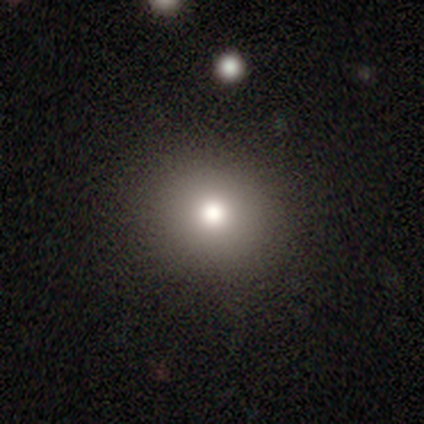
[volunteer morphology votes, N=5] smooth-or-featured: smooth: 100% | featured or disk: 0% | star or artifact: 0%
  how-rounded: round: 80% | in between: 20% | cigar-shaped: 0%
  merging: none: 100% | minor disturbance: 0% | major disturbance: 0% | merger: 0%